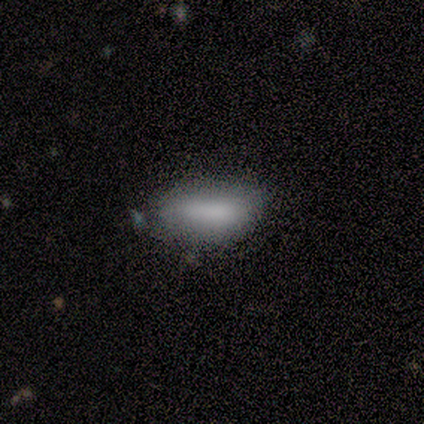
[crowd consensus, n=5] A smooth galaxy with no disk features (80%) that is in between round and cigar-shaped (100%). Merging: none (100%).